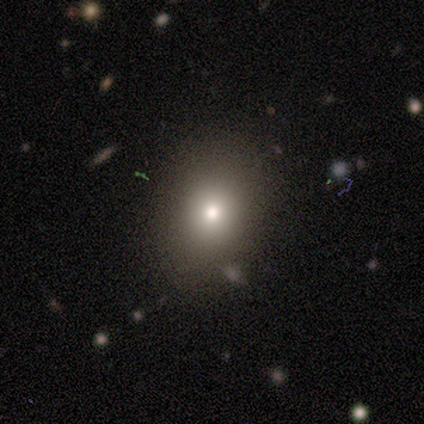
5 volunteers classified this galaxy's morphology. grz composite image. It shows a smooth galaxy with no disk features (40%, tied with featured or disk) that is round (50%, tied with in between). Merging: none (75%).